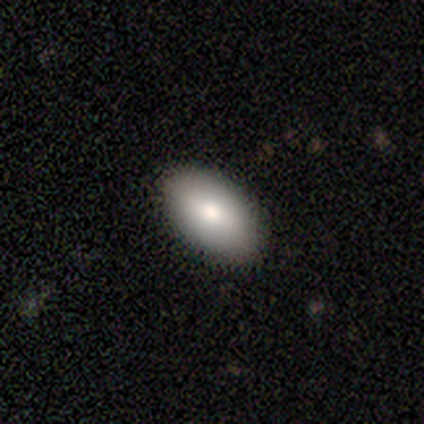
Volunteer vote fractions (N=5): Smooth or featured?
  - smooth: 80% *
  - star or artifact: 20%
  - featured or disk: 0%
How rounded?
  - in between: 100% *
  - round: 0%
  - cigar-shaped: 0%
Merging?
  - none: 75% *
  - minor disturbance: 25%
  - major disturbance: 0%
  - merger: 0%